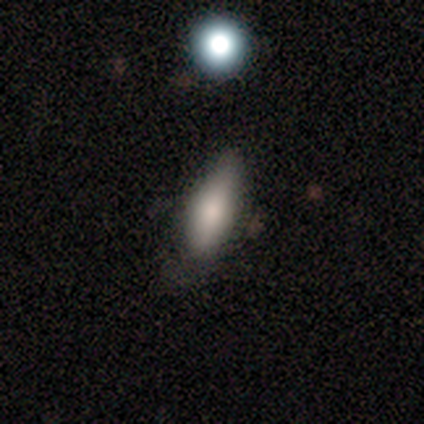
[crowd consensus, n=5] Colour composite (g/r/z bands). It shows a smooth galaxy with no disk features (60%) that is in between round and cigar-shaped (100%). Merging: none (100%).